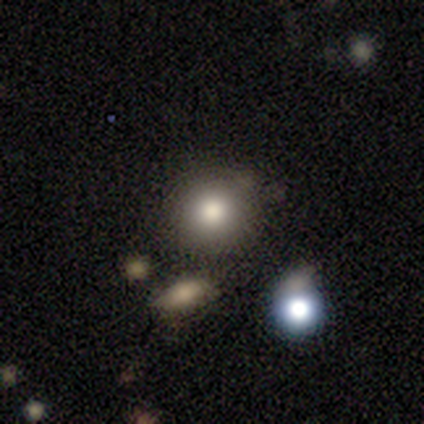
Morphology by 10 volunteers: This appears to be a smooth galaxy with no disk features (80%) that is round (100%). Merging: none (38%, tied with minor disturbance).